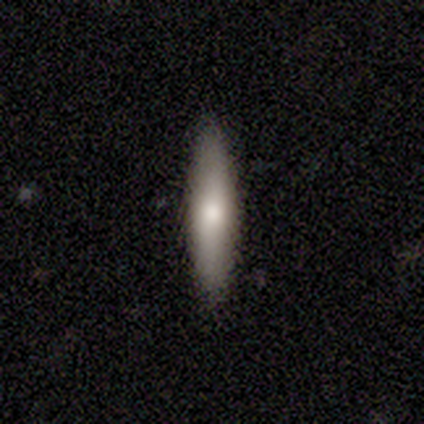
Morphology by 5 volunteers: A smooth galaxy with no disk features (80%) that is in between round and cigar-shaped (50%, tied with cigar-shaped). Merging: none (100%).